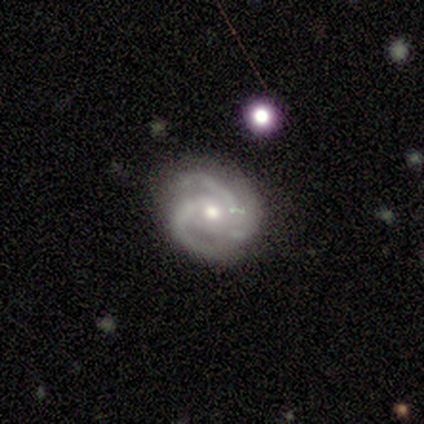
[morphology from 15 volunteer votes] This is clearly a featured or disk galaxy (87%). It is clearly not viewed edge-on (100%). Bar: likely no (77%). Spiral arm pattern: clearly yes (92%). Spiral arm count: likely 3 (75%). Spiral winding: possibly medium (58%). Central bulge: likely moderate (69%). Merging: likely none (71%).